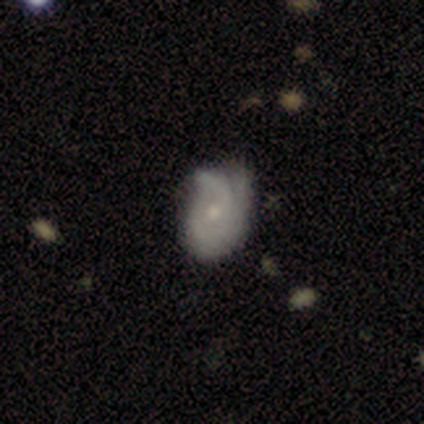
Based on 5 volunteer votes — Smooth or featured? 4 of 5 (80%) said featured or disk. Edge-on disk? 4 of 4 (100%) said no. Bar? 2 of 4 (50%, tied with no) said weak. Spiral arms? 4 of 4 (100%) said yes. Spiral winding? 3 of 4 (75%) said loose. Spiral arm count? 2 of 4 (50%) said 2. Bulge size? 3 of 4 (75%) said small. Merging? 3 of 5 (60%) said none.